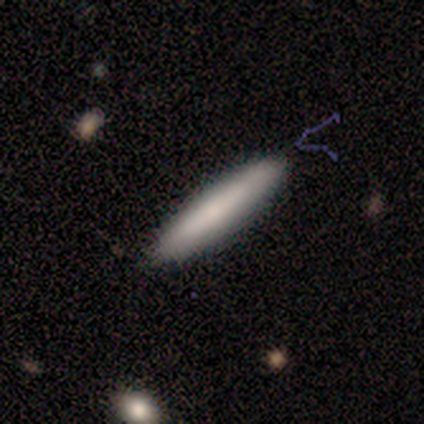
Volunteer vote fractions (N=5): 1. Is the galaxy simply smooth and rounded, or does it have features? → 80% featured or disk, 20% smooth, 0% star or artifact.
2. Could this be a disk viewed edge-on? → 75% yes, 25% no.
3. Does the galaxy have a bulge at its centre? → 67% none, 33% rounded, 0% boxy.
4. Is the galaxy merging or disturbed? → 60% none, 20% minor disturbance, 20% major disturbance, 0% merger.